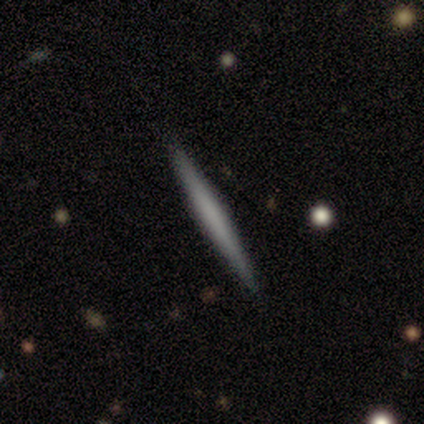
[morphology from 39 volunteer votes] Overall: smooth (49%; featured or disk 33%). How rounded: cigar-shaped (100%). Merging: none (97%).